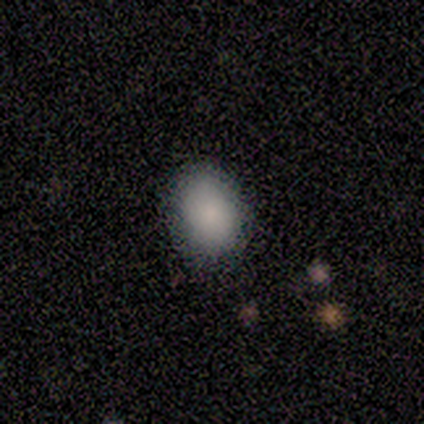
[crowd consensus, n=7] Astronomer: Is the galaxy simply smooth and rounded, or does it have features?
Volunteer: smooth — 100%.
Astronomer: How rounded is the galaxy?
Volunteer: in between — 71%.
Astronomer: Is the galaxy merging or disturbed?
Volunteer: none — 57%.